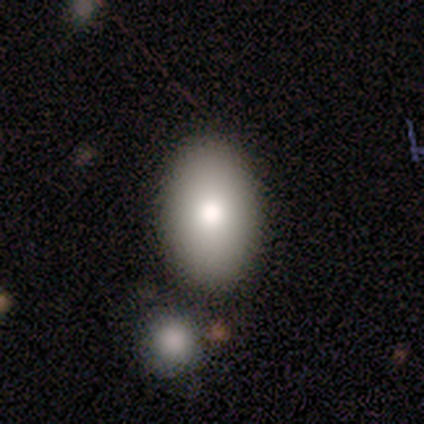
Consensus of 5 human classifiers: A smooth galaxy with no disk features (100%) that is in between round and cigar-shaped (80%). Merging: none (100%).